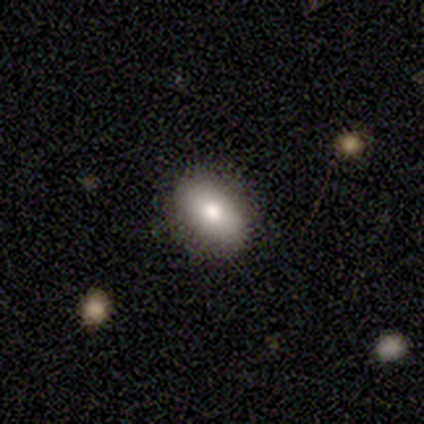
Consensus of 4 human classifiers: A smooth galaxy with no disk features (75%) that is in between round and cigar-shaped (100%). Merging: none (100%).